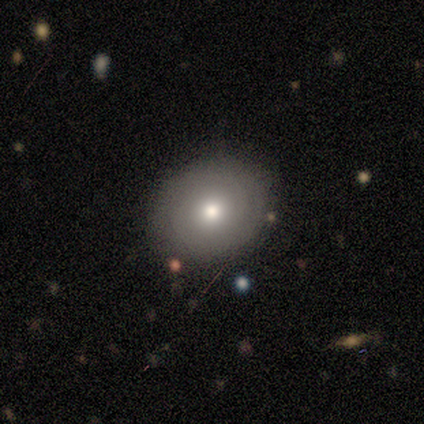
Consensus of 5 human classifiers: smooth-or-featured: featured or disk: 60% | smooth: 40% | star or artifact: 0%
  disk-edge-on: no: 100% | yes: 0%
    bar: no: 67% | strong: 33% | weak: 0%
    has-spiral-arms: no: 67% | yes: 33%
    bulge-size: dominant: 33% (tied) | moderate: 33% (tied) | small: 33% (tied) | large: 0% | none: 0%
  merging: none: 100% | minor disturbance: 0% | major disturbance: 0% | merger: 0%